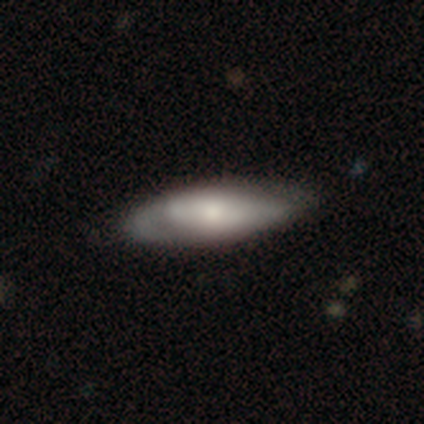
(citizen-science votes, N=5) Morphology: type=featured or disk (60%); edge-on=no (67%); bar=no (100%); spiral arms=no (100%); bulge=moderate (50%, tied with small); merging=minor disturbance (60%).